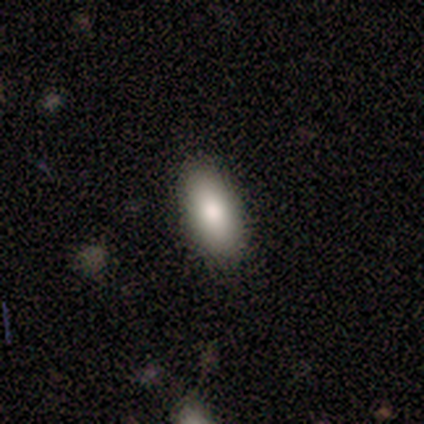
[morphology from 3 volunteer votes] Smooth or featured? 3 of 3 (100%) said smooth. How rounded? 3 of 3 (100%) said in between. Merging? 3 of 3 (100%) said none.